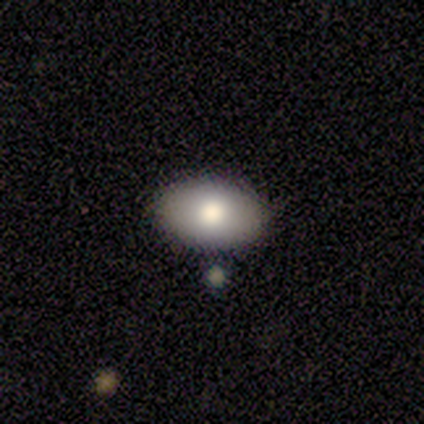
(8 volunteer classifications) Smooth or featured: smooth — 75% (featured or disk — 25%)
How rounded: in between — 83% (round — 17%)
Merging: none — 88% (minor disturbance — 12%)